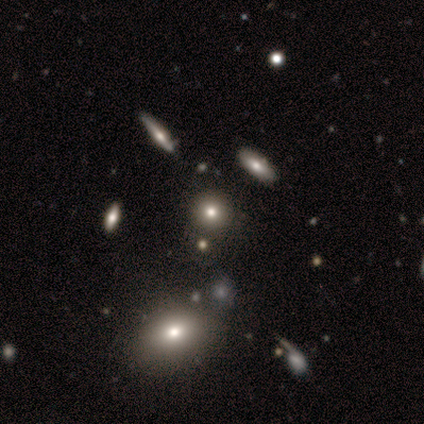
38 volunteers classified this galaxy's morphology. Smooth or featured?
  - smooth: 68% *
  - star or artifact: 18%
  - featured or disk: 13%
How rounded?
  - round: 92% *
  - in between: 8%
  - cigar-shaped: 0%
Merging?
  - none: 52% *
  - merger: 29%
  - minor disturbance: 0%
  - major disturbance: 0%